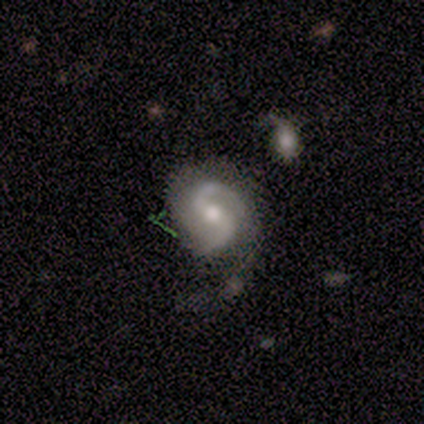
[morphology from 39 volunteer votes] Smooth or featured: featured or disk — 79% (smooth — 10%)
Edge-on disk: no — 97% (yes — 3%)
Bar: weak — 57% (strong — 27%)
Spiral arms: yes — 100%
Spiral winding: medium — 47% (loose — 33%)
Spiral arm count: 2 — 90% (1 — 7%)
Bulge size: moderate — 63% (small — 23%)
Merging: none — 43% (major disturbance — 26%)